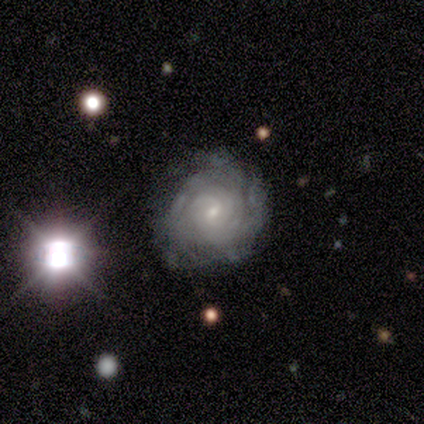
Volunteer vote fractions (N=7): Morphology: type=featured or disk (100%); edge-on=no (100%); bar=no (86%); spiral arms=yes (100%); winding=tight (100%); arm count=more than 4 (43%, tied with can't tell); bulge=small (86%); merging=none (86%).